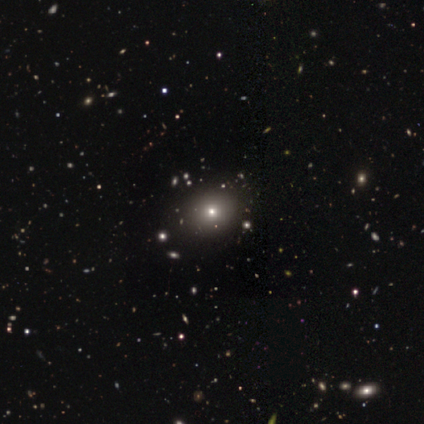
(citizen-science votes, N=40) Smooth or featured? smooth (57%)
How rounded? round (70%)
Merging? none (93%)